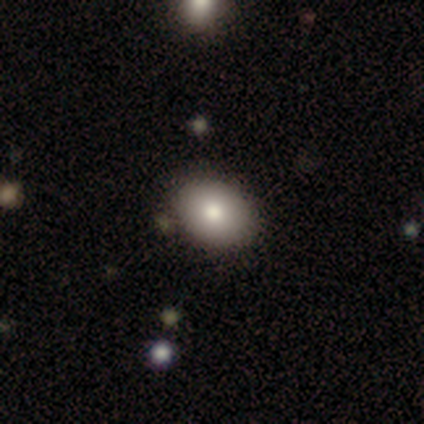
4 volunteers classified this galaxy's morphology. Smooth or featured: smooth — 100%
How rounded: in between — 75% (round — 25%)
Merging: none — 75% (minor disturbance — 25%)